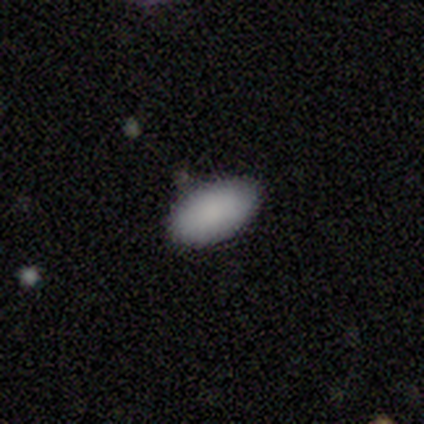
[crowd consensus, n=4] Smooth or featured?
  - smooth: 75% *
  - star or artifact: 25%
  - featured or disk: 0%
How rounded?
  - in between: 67% *
  - round: 33%
  - cigar-shaped: 0%
Merging?
  - minor disturbance: 67% *
  - none: 33%
  - major disturbance: 0%
  - merger: 0%